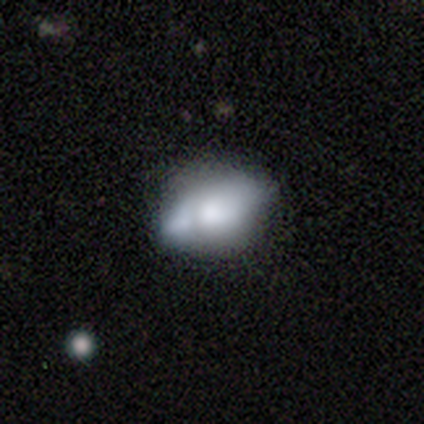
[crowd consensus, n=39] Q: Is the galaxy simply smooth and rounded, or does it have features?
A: smooth — 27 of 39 (69%).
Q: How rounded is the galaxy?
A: in between — 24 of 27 (89%).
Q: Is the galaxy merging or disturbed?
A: none — 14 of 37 (38%).